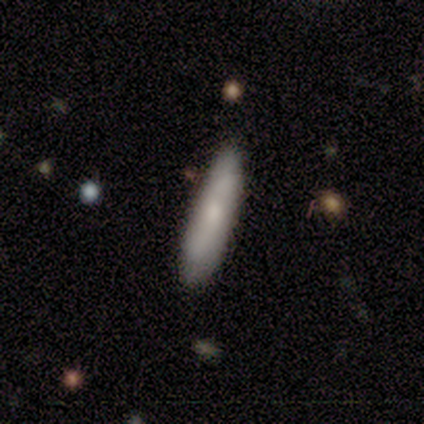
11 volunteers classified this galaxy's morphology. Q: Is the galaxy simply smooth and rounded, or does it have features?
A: smooth — 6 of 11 (55%).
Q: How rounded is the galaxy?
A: cigar-shaped — 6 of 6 (100%).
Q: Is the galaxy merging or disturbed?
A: none — 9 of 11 (82%).